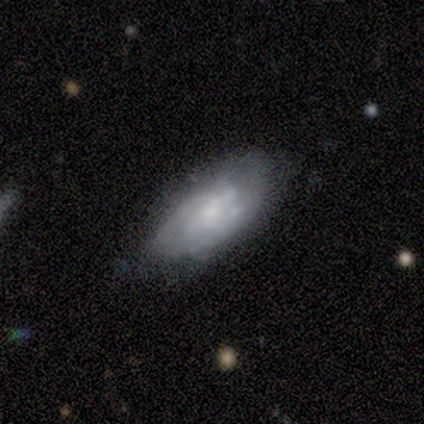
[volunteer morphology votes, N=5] A featured or disk galaxy (60%) with a weak bar (50%, tied with no), no spiral arms (100%) and a small central bulge (100%). Merging: minor disturbance (60%).